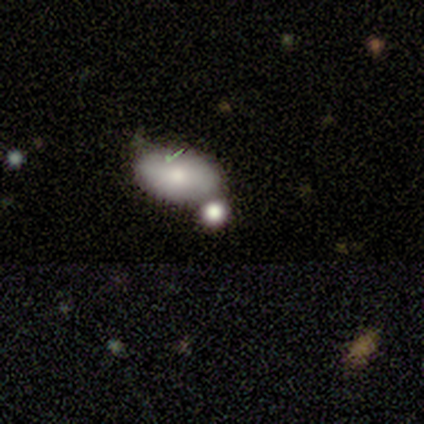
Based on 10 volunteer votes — smooth 100%, featured or disk 0%, star or artifact 0%. Down the decision tree: how rounded — in between (80%); merging — none (60%).